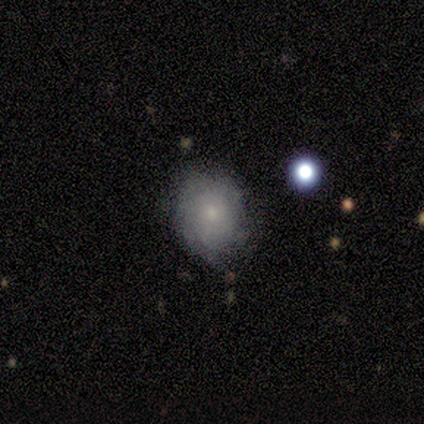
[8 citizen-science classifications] Smooth or featured: featured or disk — 62% (smooth — 38%)
Edge-on disk: no — 100%
Bar: no — 100%
Spiral arms: yes — 60% (no — 40%)
Spiral winding: tight — 100%
Spiral arm count: can't tell — 100%
Bulge size: small — 100%
Merging: none — 75% (minor disturbance — 12%)